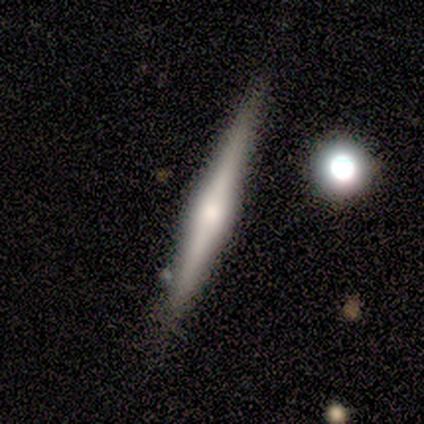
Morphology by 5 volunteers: featured or disk 80%, smooth 20%, star or artifact 0%. Down the decision tree: edge-on disk — yes (100%); edge-on bulge — rounded (100%); merging — none (60%).